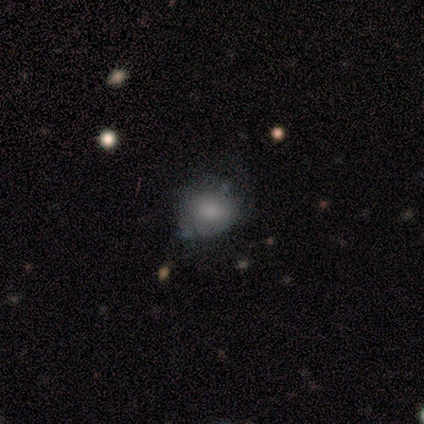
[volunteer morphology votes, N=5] Smooth or featured? 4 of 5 (80%) said smooth. How rounded? 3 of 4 (75%) said round. Merging? 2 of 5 (40%, tied with minor disturbance) said none.